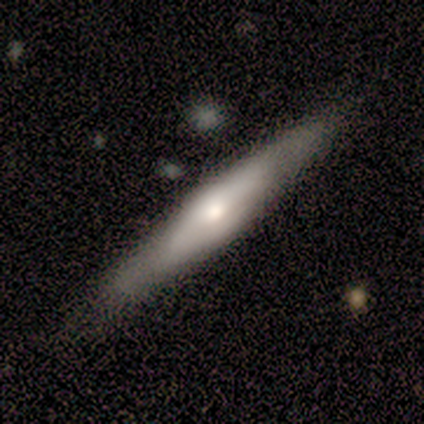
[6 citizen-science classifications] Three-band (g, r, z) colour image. It shows a smooth galaxy with no disk features (67%) that is cigar-shaped (100%). Merging: none (50%, tied with minor disturbance).